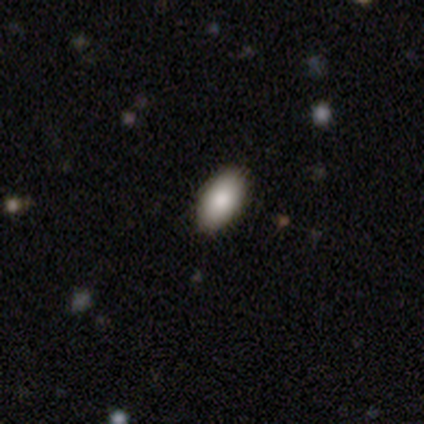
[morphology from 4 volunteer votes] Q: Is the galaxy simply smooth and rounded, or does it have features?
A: smooth — 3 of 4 (75%).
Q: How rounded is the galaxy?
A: in between — 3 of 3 (100%).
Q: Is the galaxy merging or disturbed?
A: none — 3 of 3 (100%).